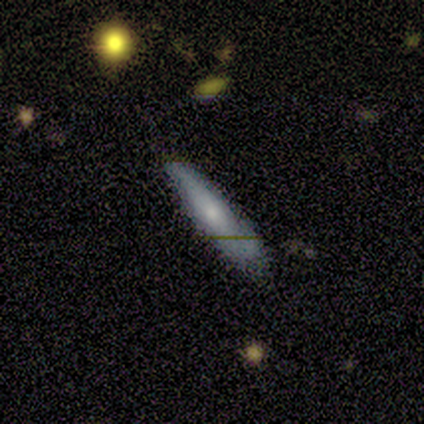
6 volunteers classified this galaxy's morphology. Smooth or featured? smooth (83%)
How rounded? cigar-shaped (80%)
Merging? none (67%)